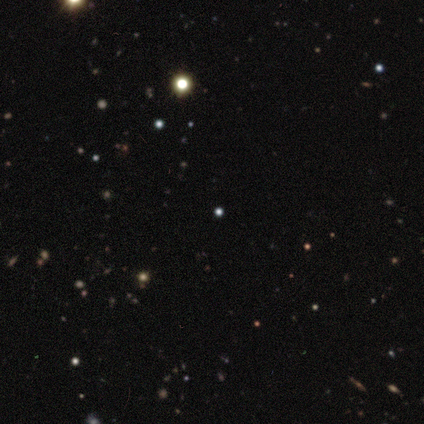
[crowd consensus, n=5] smooth_or_featured: star or artifact (p=0.60) [alt: smooth p=0.40]